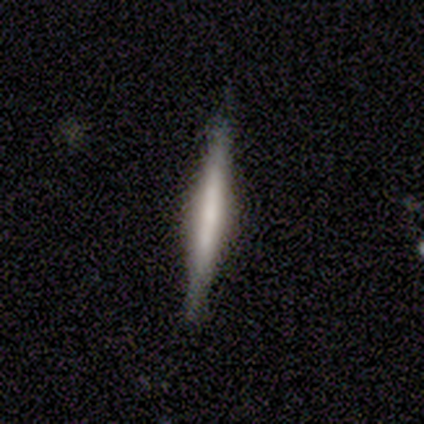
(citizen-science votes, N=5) A featured or disk galaxy (100%) viewed edge-on (100%) with a rounded central bulge (60%). Merging: none (100%).